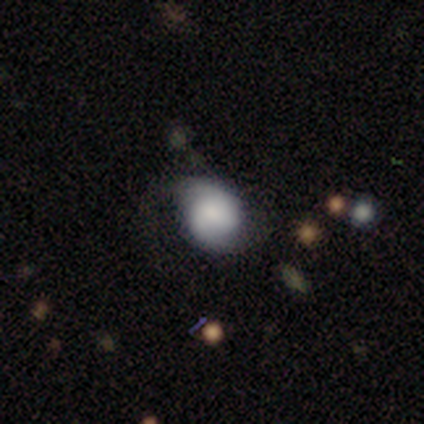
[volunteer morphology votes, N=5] A featured or disk galaxy (60%) with no bar (100%), medium (67%) spiral arms (100%) and a large central bulge (67%). Merging: none (40%, tied with minor disturbance).